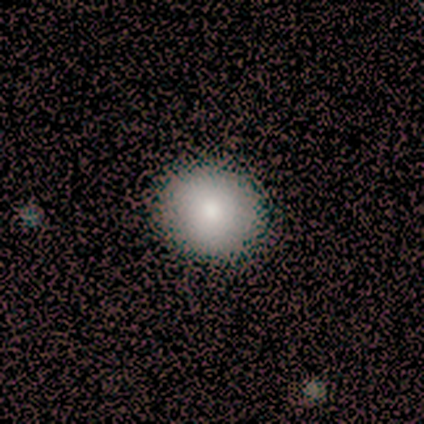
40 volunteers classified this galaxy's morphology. smooth_or_featured: smooth (p=0.90) [alt: featured or disk p=0.05]
how_rounded: round (p=0.83) [alt: in between p=0.17]
merging: none (p=0.63) [alt: minor disturbance p=0.03]